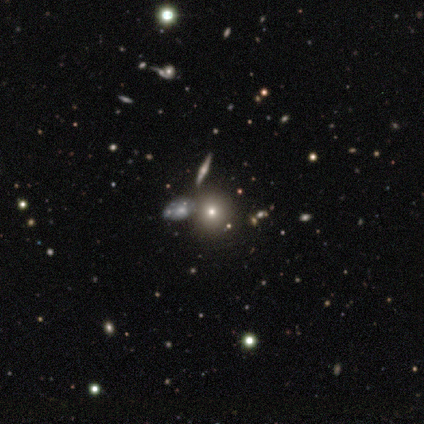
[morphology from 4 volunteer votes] type=smooth (50%); roundness=round (50%, tied with in between); merging=none (100%).